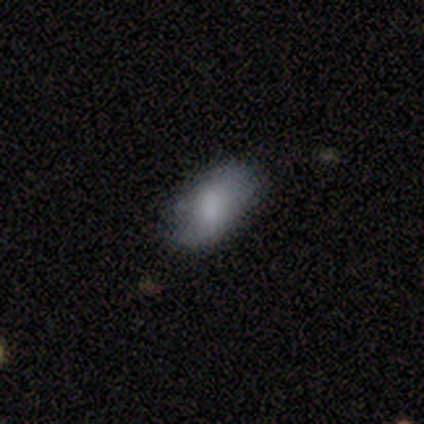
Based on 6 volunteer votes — Smooth or featured: smooth — 100%
How rounded: in between — 100%
Merging: none — 50% (tied with minor disturbance — 50%)